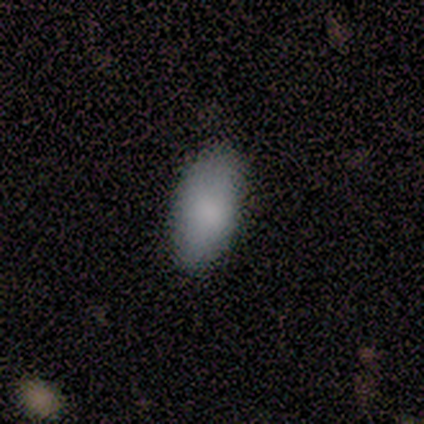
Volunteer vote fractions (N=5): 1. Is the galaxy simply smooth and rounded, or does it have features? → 100% smooth, 0% featured or disk, 0% star or artifact.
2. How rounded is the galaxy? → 100% in between, 0% round, 0% cigar-shaped.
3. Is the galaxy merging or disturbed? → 100% none, 0% minor disturbance, 0% major disturbance, 0% merger.